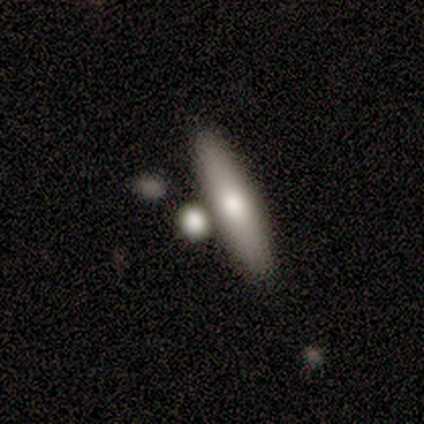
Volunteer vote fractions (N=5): Smooth or featured: smooth — 80% (featured or disk — 20%)
How rounded: cigar-shaped — 100%
Merging: none — 60% (minor disturbance — 20%)